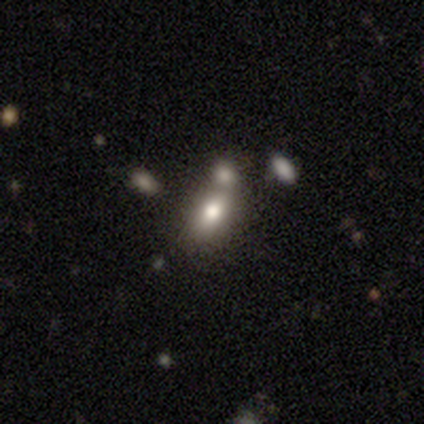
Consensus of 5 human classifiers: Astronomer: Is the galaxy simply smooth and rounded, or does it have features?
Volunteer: smooth — 60% (runner-up: star or artifact, 40%).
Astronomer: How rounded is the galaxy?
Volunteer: in between — 100%.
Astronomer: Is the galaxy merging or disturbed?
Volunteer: none — 100%.